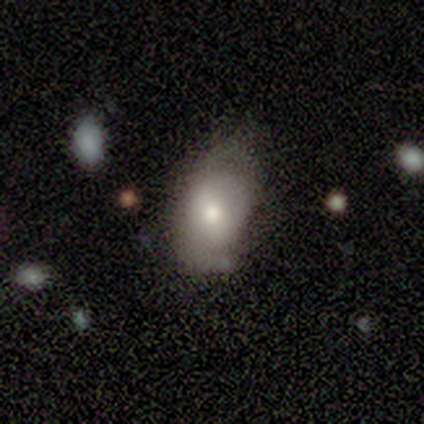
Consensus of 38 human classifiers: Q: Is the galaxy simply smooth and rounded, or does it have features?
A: smooth — 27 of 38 (71%).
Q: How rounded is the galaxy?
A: in between — 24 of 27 (89%).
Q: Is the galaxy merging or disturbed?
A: none — 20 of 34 (59%).